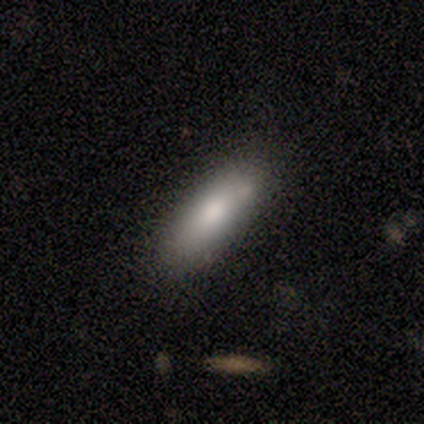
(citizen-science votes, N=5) This is likely a smooth galaxy (60%). How rounded: clearly in between (100%). Merging: clearly none (80%).